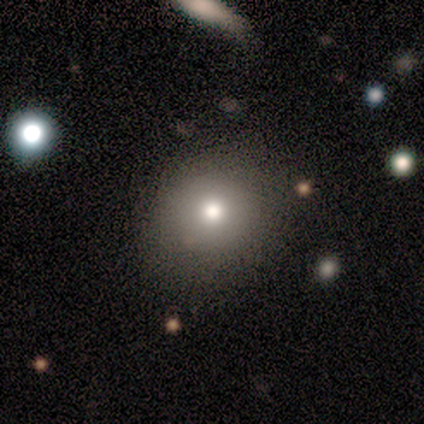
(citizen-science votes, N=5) Q: Smooth or featured?
A: smooth (80%); runner-up: featured or disk (20%)
Q: How rounded?
A: round (75%); runner-up: in between (25%)
Q: Merging?
A: none (100%)